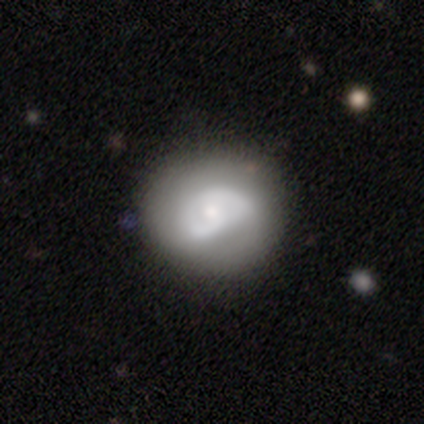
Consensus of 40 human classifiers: Q: Smooth or featured?
A: featured or disk (55%); runner-up: smooth (42%)
Q: Edge-on disk?
A: no (95%); runner-up: yes (5%)
Q: Bar?
A: no (57%); runner-up: weak (33%)
Q: Spiral arms?
A: yes (71%); runner-up: no (29%)
Q: Spiral winding?
A: tight (73%); runner-up: medium (20%)
Q: Spiral arm count?
A: 2 (47%); runner-up: can't tell (40%)
Q: Bulge size?
A: small (43%); runner-up: moderate (33%)
Q: Merging?
A: none (62%); runner-up: minor disturbance (23%)